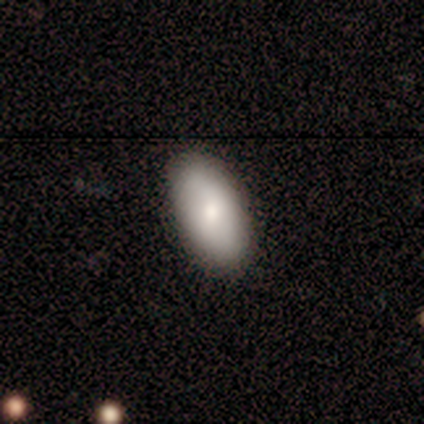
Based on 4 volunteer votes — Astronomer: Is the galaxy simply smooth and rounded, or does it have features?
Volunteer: smooth — 100%.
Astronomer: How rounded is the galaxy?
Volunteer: in between — 100%.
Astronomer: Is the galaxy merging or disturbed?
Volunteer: none — 100%.